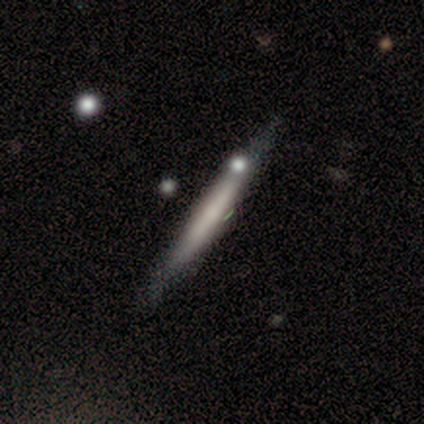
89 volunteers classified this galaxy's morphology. featured or disk 51%, smooth 46%, star or artifact 3%. Down the decision tree: edge-on disk — yes (93%); edge-on bulge — none (79%); merging — none (78%).